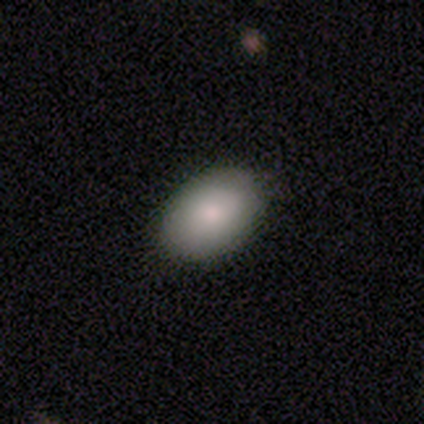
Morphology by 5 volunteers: Smooth or featured? 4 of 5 (80%) said smooth. How rounded? 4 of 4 (100%) said in between. Merging? 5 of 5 (100%) said none.